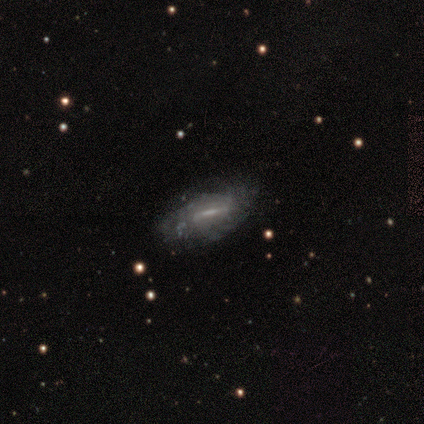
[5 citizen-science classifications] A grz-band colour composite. It shows a featured or disk galaxy (100%) with a weak bar (67%), 2 (50%, tied with can't tell) tight (50%, tied with medium) spiral arms (67%) and a moderate central bulge (67%). Merging: none (80%).